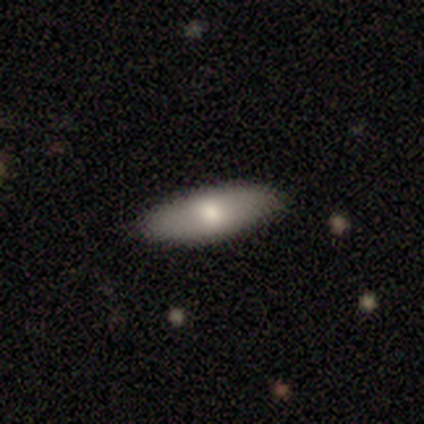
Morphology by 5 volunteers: Smooth or featured? smooth (80%)
How rounded? in between (75%)
Merging? none (100%)